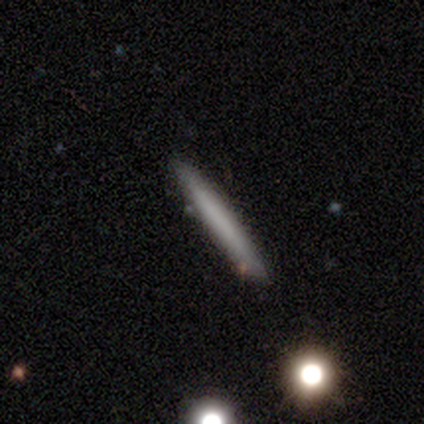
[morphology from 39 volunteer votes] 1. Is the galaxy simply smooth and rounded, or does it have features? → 54% smooth, 33% featured or disk, 13% star or artifact.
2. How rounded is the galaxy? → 95% cigar-shaped, 5% in between, 0% round.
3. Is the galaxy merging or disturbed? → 82% none, 15% minor disturbance, 3% merger, 0% major disturbance.